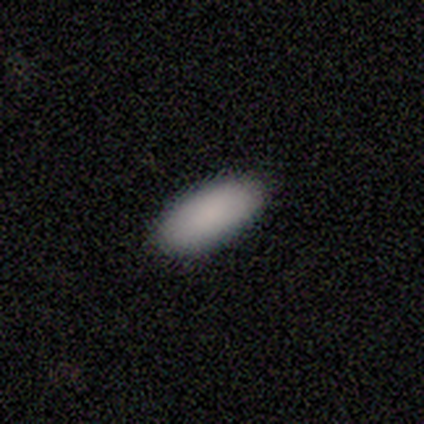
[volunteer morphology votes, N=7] A smooth galaxy with no disk features (86%) that is in between round and cigar-shaped (100%). Merging: none (86%).